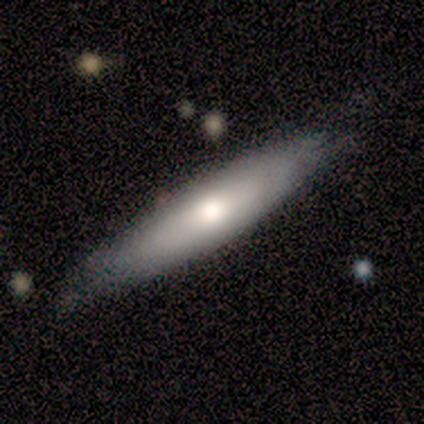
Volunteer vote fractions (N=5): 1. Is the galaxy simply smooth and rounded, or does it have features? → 60% smooth, 40% featured or disk, 0% star or artifact.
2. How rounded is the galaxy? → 100% cigar-shaped, 0% round, 0% in between.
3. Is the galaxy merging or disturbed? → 80% none, 20% minor disturbance, 0% major disturbance, 0% merger.